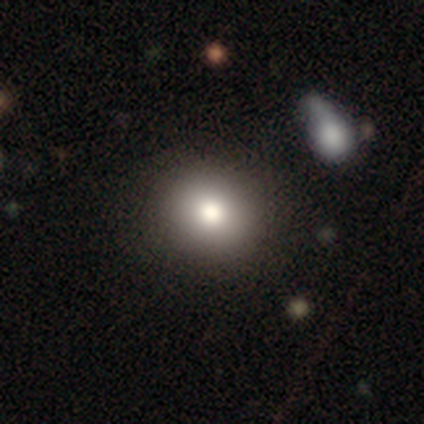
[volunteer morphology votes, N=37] A smooth galaxy with no disk features (81%) that is round (67%). Merging: none (80%).